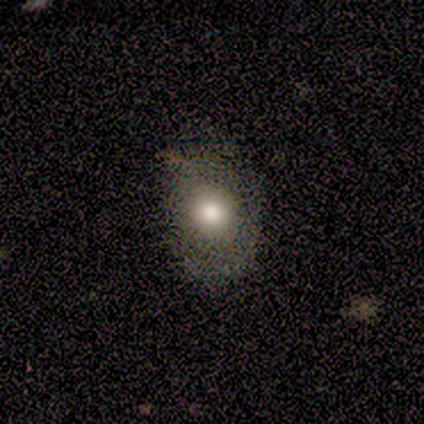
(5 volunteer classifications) smooth 80%, star or artifact 20%, featured or disk 0%. Down the decision tree: how rounded — in between (75%); merging — none (75%).